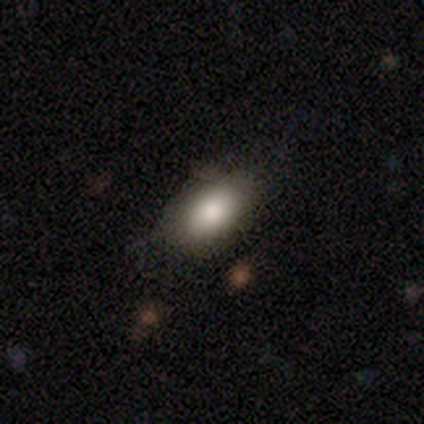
Q: Smooth or featured?
A: smooth (80%); runner-up: star or artifact (12%)
Q: How rounded?
A: in between (93%); runner-up: round (4%)
Q: Merging?
A: none (73%); runner-up: minor disturbance (25%)